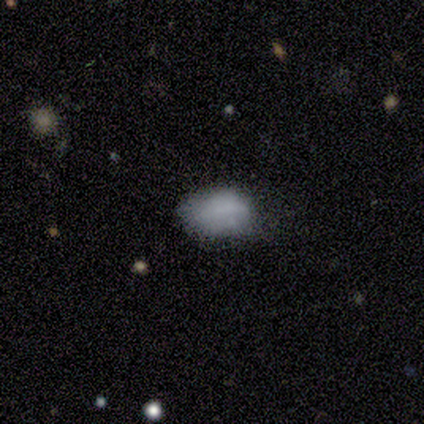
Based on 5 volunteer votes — A smooth galaxy with no disk features (60%) that is in between round and cigar-shaped (67%). Merging: none (50%, tied with minor disturbance).